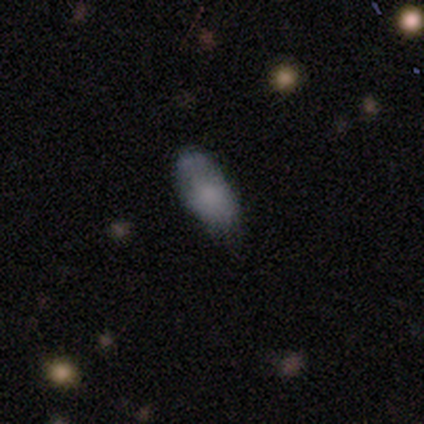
smooth 80%, featured or disk 20%, star or artifact 0%. Down the decision tree: how rounded — in between (100%); merging — none (40%, tied with minor disturbance).